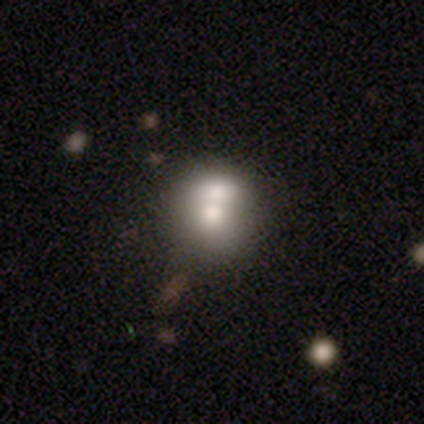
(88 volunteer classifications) smooth-or-featured: smooth: 58% | featured or disk: 32% | star or artifact: 10%
  how-rounded: round: 78% | in between: 22% | cigar-shaped: 0%
  merging: merger: 59% | none: 29% | minor disturbance: 8% | major disturbance: 4%